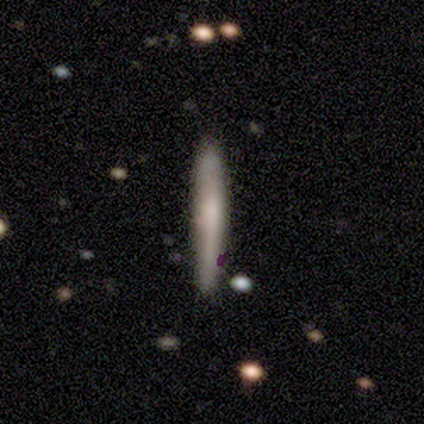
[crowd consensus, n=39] smooth 77%, featured or disk 21%, star or artifact 3%. Down the decision tree: how rounded — cigar-shaped (97%); merging — none (74%).